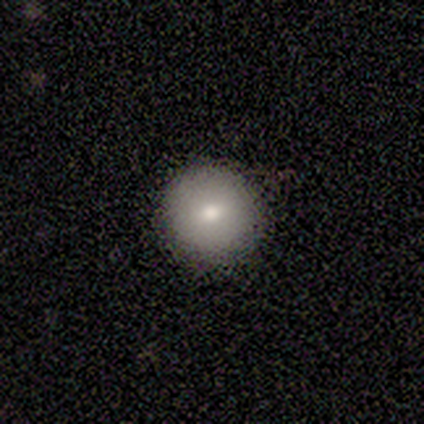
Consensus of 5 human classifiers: Smooth or featured? smooth (80%)
How rounded? round (100%)
Merging? none (100%)